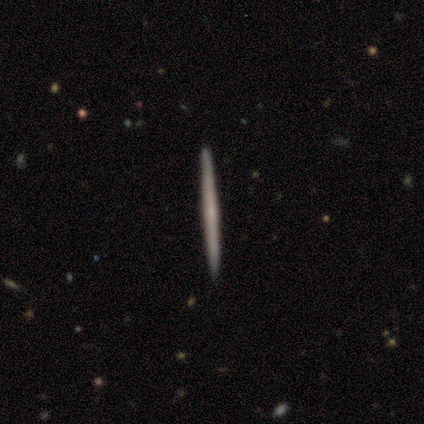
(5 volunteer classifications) Volunteers were most divided on "smooth or featured": featured or disk: 60%, smooth: 40%, star or artifact: 0%. More confident: edge-on disk — yes (100%); merging — none (100%); edge-on bulge — rounded (67%).